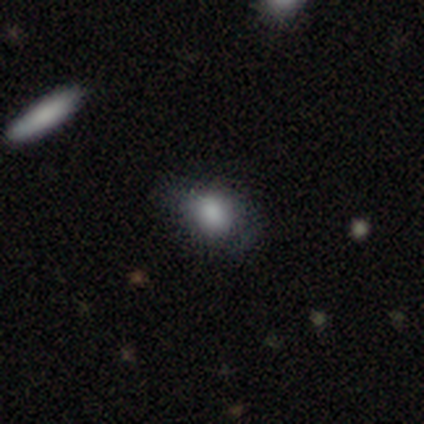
Overall: smooth (80%). How rounded: in between (75%). Merging: minor disturbance (75%).